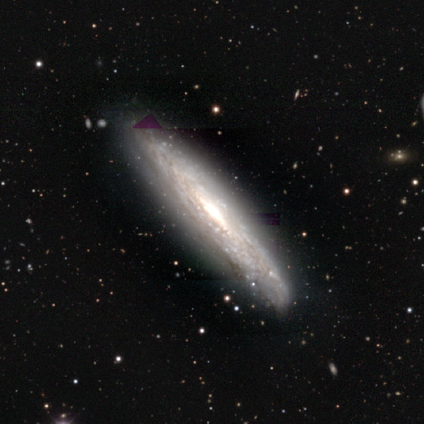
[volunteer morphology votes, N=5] Smooth or featured? featured or disk (100%)
Edge-on disk? yes (60%)
Edge-on bulge? rounded (100%)
Merging? none (80%)